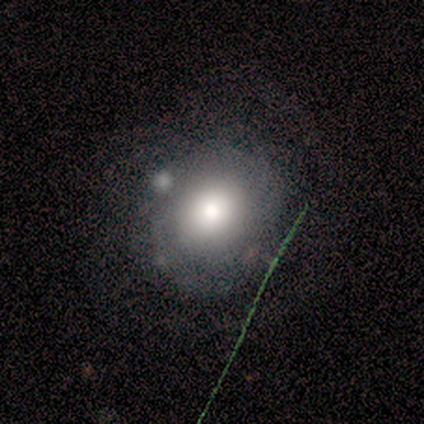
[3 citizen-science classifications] Smooth or featured? 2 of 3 (67%) said smooth. How rounded? 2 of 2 (100%) said round. Merging? 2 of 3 (67%) said none.